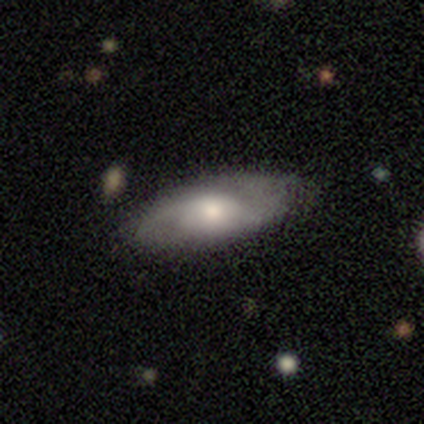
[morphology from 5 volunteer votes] type=featured or disk (60%); edge-on=no (100%); bar=no (100%); spiral arms=yes (100%); winding=medium (67%); arm count=2 (67%); bulge=moderate (100%); merging=none (100%).